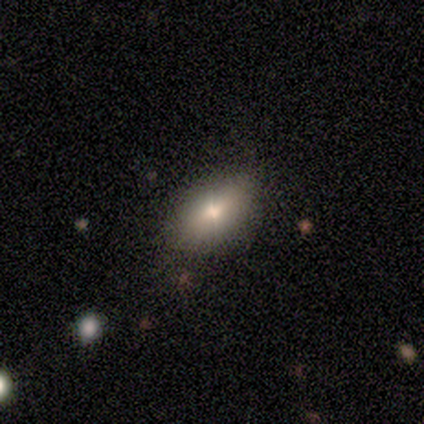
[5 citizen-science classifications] This appears to be a smooth galaxy with no disk features (60%) that is in between round and cigar-shaped (67%). Merging: none (100%).